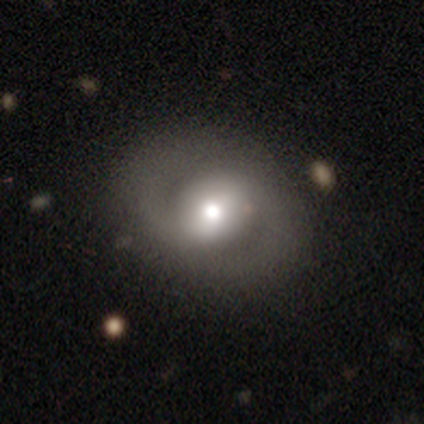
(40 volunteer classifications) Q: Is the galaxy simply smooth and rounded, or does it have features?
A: featured or disk — 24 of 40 (60%).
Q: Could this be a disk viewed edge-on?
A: no — 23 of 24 (96%).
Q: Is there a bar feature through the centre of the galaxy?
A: weak — 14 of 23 (61%).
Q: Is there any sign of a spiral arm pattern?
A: yes — 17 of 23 (74%).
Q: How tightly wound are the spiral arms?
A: medium — 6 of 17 (35%, tied with loose).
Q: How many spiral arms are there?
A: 2 — 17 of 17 (100%).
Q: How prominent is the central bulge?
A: moderate — 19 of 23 (83%).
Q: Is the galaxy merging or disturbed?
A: none — 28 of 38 (74%).